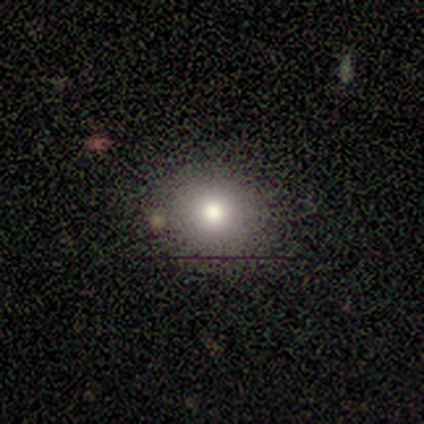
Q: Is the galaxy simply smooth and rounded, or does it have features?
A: smooth — 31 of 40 (78%).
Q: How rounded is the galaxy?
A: round — 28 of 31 (90%).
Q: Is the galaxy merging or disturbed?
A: none — 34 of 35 (97%).